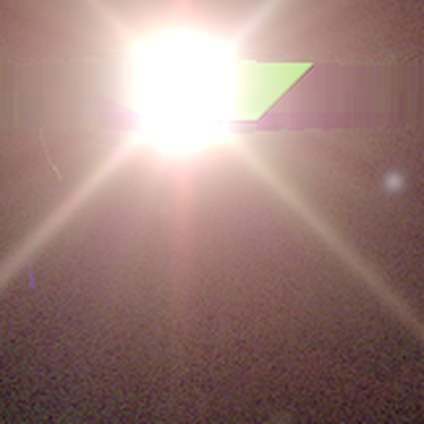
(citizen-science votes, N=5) A star or artifact, not a galaxy (100%).

Vote fractions:
- Smooth or featured? star or artifact: 100% / smooth: 0% / featured or disk: 0%